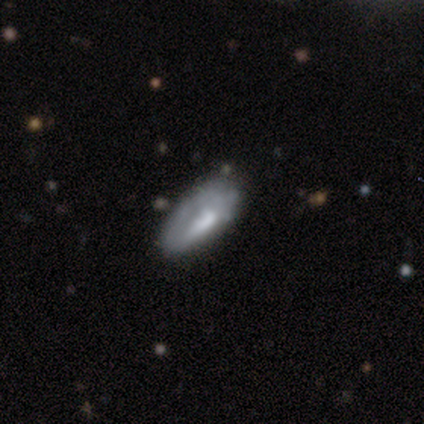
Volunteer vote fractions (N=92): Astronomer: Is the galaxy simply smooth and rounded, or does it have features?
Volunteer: smooth — 57% (runner-up: featured or disk, 32%).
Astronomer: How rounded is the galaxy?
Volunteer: in between — 77%.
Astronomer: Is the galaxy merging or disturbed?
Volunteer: none — 48% (runner-up: minor disturbance, 32%).